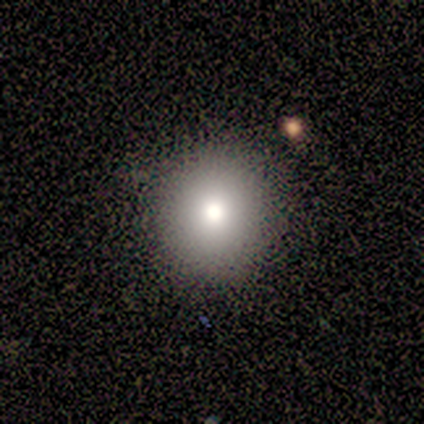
smooth_or_featured: smooth (p=0.80) [alt: star or artifact p=0.20]
how_rounded: round (p=1.00)
merging: none (p=1.00)